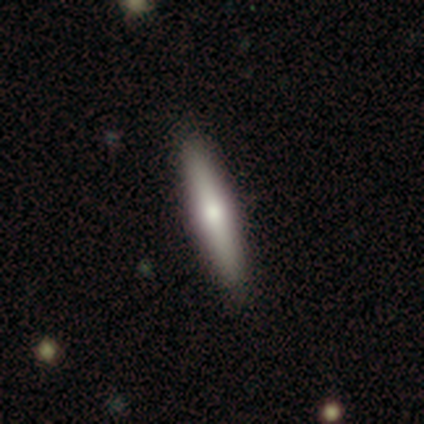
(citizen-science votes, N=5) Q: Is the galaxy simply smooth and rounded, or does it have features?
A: smooth — 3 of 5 (60%).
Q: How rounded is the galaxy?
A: cigar-shaped — 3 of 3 (100%).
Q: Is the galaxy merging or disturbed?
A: none — 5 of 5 (100%).